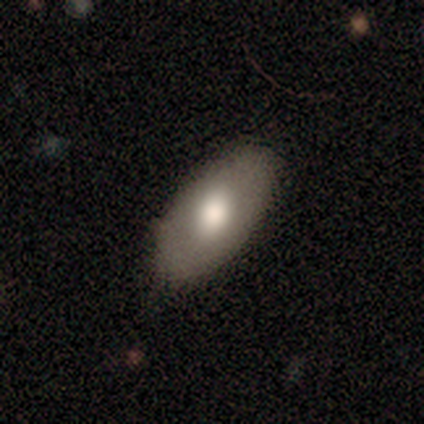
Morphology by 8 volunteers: Smooth or featured: smooth — 62% (featured or disk — 25%)
How rounded: in between — 100%
Merging: none — 86% (minor disturbance — 14%)